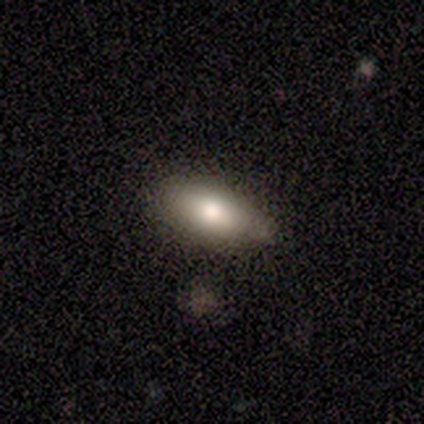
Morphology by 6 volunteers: smooth_or_featured: smooth (p=0.83) [alt: featured or disk p=0.17]
how_rounded: in between (p=1.00)
merging: none (p=0.83) [alt: minor disturbance p=0.17]